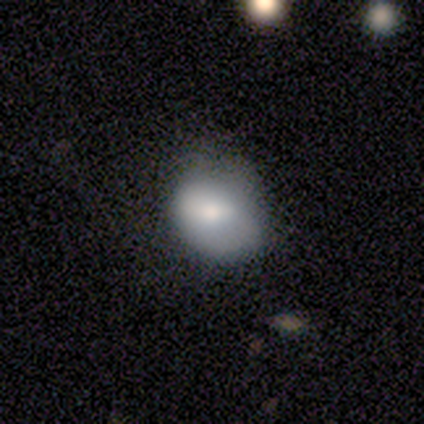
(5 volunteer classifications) Volunteers were most divided on "smooth or featured" (2-way tie): smooth: 40%, featured or disk: 40%, star or artifact: 20%; "how rounded" (2-way tie): round: 50%, in between: 50%, cigar-shaped: 0%. More confident: merging — minor disturbance (75%).